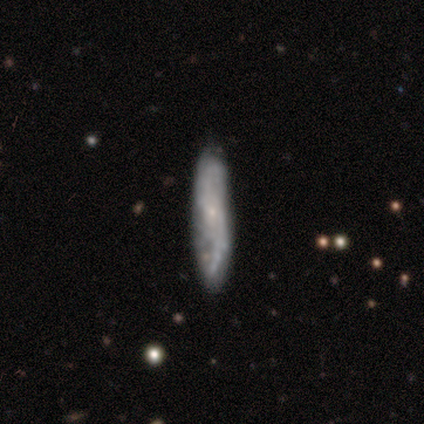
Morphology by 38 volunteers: Volunteers were most divided on "spiral winding": medium: 43%, loose: 36%, tight: 21%. More confident: spiral arms — yes (88%); bar — no (81%); bulge size — small (81%); merging — none (68%); edge-on disk — no (67%); smooth or featured — featured or disk (63%); spiral arm count — 2 (50%).